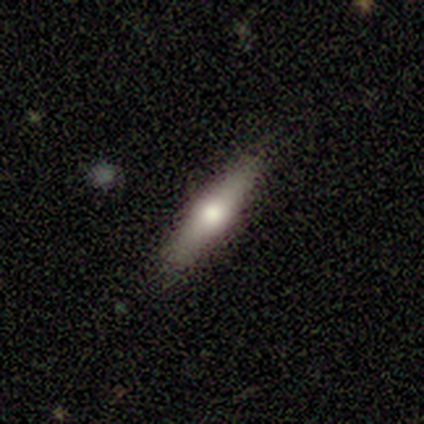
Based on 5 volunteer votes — Smooth or featured?
  - smooth: 60% *
  - featured or disk: 20%
  - star or artifact: 20%
How rounded?
  - cigar-shaped: 67% *
  - in between: 33%
  - round: 0%
Merging?
  - none: 100% *
  - minor disturbance: 0%
  - major disturbance: 0%
  - merger: 0%